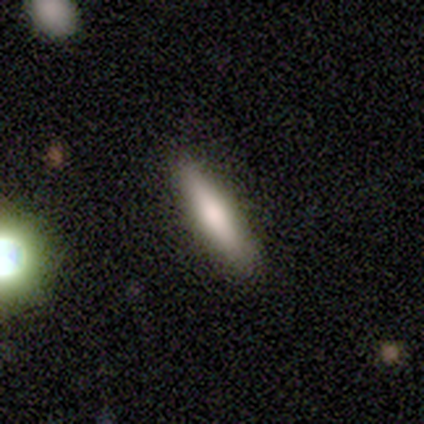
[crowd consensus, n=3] smooth 67%, featured or disk 33%, star or artifact 0%. Down the decision tree: how rounded — cigar-shaped (100%); merging — none (67%).